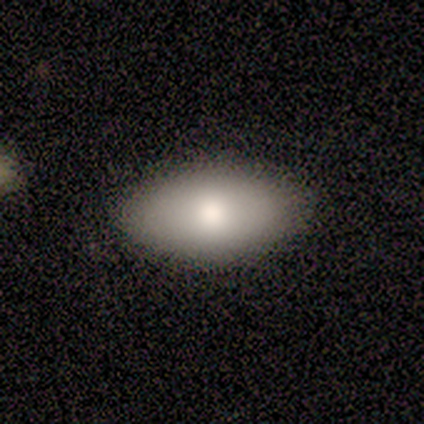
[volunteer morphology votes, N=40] Smooth or featured? 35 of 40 (88%) said smooth. How rounded? 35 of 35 (100%) said in between. Merging? 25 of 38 (66%) said none.